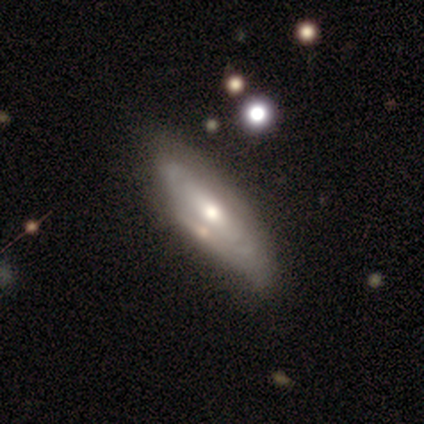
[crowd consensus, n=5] A smooth galaxy with no disk features (60%) that is in between round and cigar-shaped (67%). Merging: none (60%).